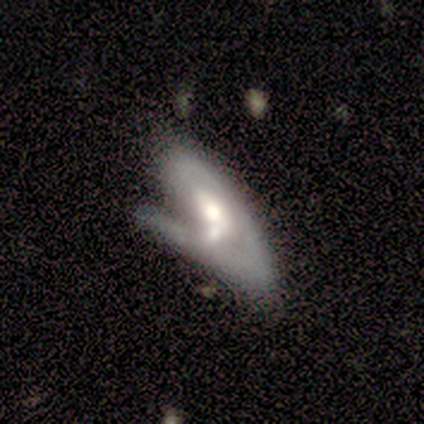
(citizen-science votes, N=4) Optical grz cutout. It shows a featured or disk galaxy (75%) with no bar (67%), 1 (50%, tied with 2) tight (100%) spiral arms (67%) and a moderate central bulge (100%). Merging: merger (75%).